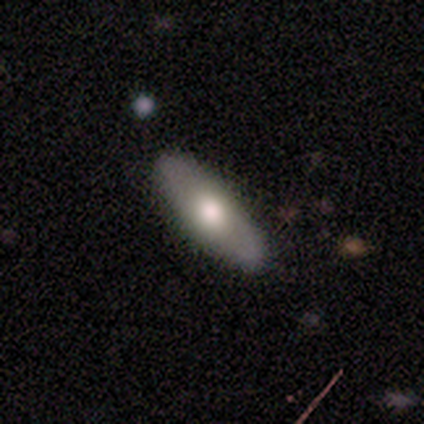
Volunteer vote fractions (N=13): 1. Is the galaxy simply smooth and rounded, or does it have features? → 77% smooth, 15% featured or disk, 8% star or artifact.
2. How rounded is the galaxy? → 50% in between (tied), 50% cigar-shaped (tied), 0% round.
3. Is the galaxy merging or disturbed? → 83% none, 8% minor disturbance, 8% major disturbance, 0% merger.